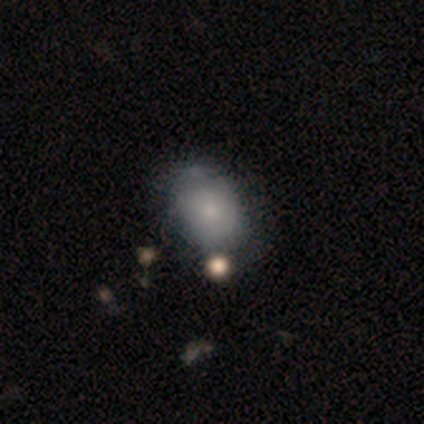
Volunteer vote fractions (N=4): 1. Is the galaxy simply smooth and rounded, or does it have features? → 75% smooth, 25% star or artifact, 0% featured or disk.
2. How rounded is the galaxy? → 100% in between, 0% round, 0% cigar-shaped.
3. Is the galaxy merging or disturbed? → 67% none, 33% minor disturbance, 0% major disturbance, 0% merger.